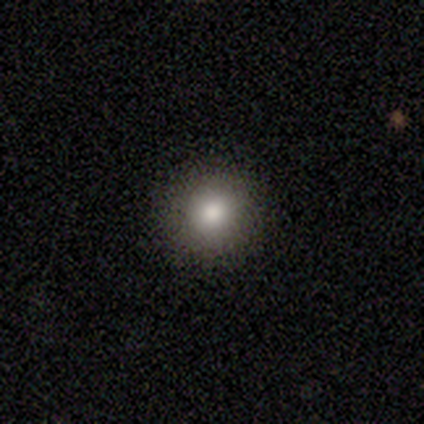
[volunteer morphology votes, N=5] A smooth galaxy with no disk features (100%) that is round (100%). Merging: none (100%).